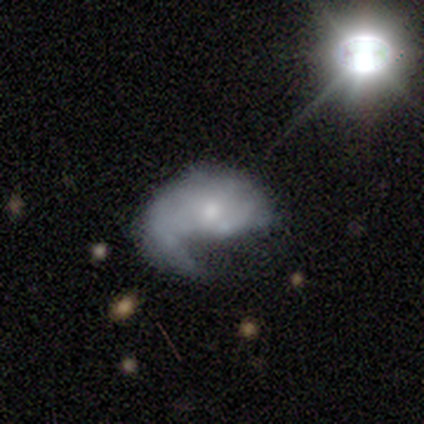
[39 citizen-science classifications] Q: Smooth or featured?
A: featured or disk (74%); runner-up: smooth (26%)
Q: Edge-on disk?
A: no (100%)
Q: Bar?
A: no (76%); runner-up: weak (24%)
Q: Spiral arms?
A: yes (86%); runner-up: no (14%)
Q: Spiral winding?
A: loose (52%); runner-up: medium (32%)
Q: Spiral arm count?
A: 1 (48%); runner-up: can't tell (28%)
Q: Bulge size?
A: small (48%); runner-up: moderate (41%)
Q: Merging?
A: major disturbance (41%); runner-up: none (33%)